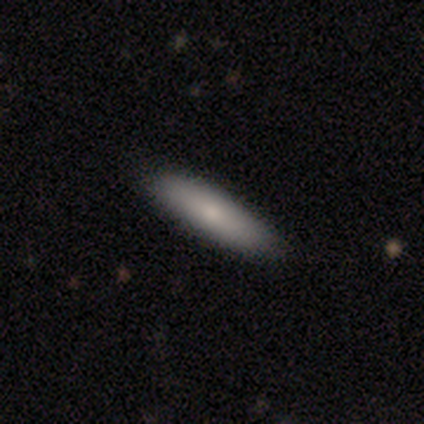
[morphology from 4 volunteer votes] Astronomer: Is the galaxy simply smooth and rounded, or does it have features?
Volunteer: smooth — 50%, tied with star or artifact at 50%.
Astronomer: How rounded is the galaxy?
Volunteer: in between — 50%, tied with cigar-shaped at 50%.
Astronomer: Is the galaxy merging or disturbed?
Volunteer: none — 100%.